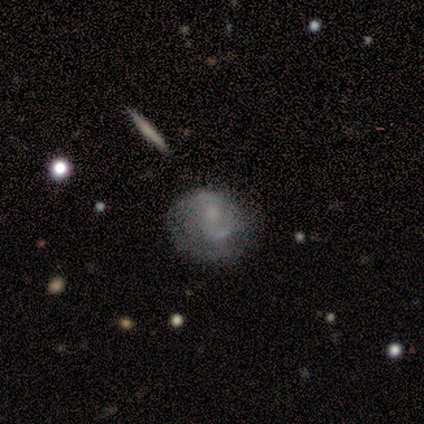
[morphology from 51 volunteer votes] smooth_or_featured: featured or disk (p=0.73) [alt: smooth p=0.22]
disk_edge_on: no (p=0.97) [alt: yes p=0.03]
bar: no (p=0.58) [alt: weak p=0.36]
has_spiral_arms: yes (p=0.61) [alt: no p=0.39]
spiral_winding: medium (p=0.41) [alt: tight p=0.36]
spiral_arm_count: 2 (p=0.68) [alt: can't tell p=0.32]
bulge_size: moderate (p=0.42) [alt: none p=0.28]
merging: none (p=0.58) [alt: minor disturbance p=0.21]